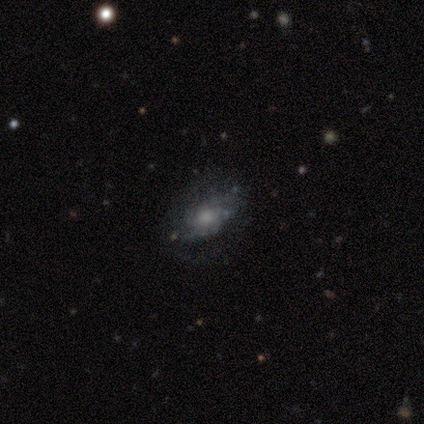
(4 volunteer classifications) Morphology: type=featured or disk (75%); edge-on=no (67%); bar=no (100%); spiral arms=yes (100%); winding=tight (50%, tied with medium); arm count=4 (50%, tied with can't tell); bulge=moderate (50%, tied with small); merging=none (75%).